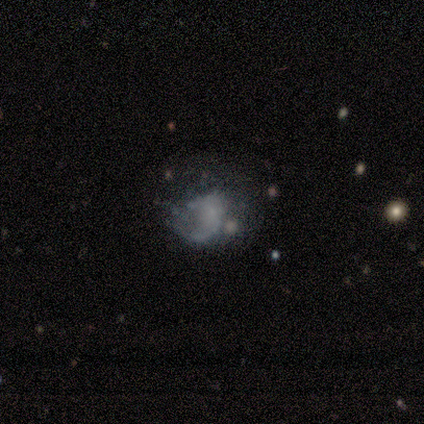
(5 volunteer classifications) Smooth or featured? featured or disk (80%)
Edge-on disk? no (100%)
Bar? no (75%)
Spiral arms? yes (50%, tied with no)
Spiral winding? tight (50%, tied with loose)
Spiral arm count? can't tell (100%)
Bulge size? none (50%)
Merging? major disturbance (50%)